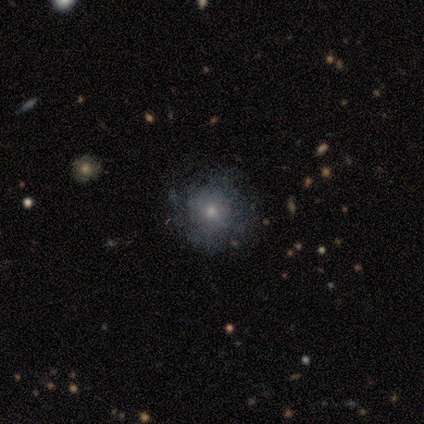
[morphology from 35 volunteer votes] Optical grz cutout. It shows a featured or disk galaxy (46%) with no bar (93%), no spiral arms (93%) and a small central bulge (57%). Merging: none (69%).